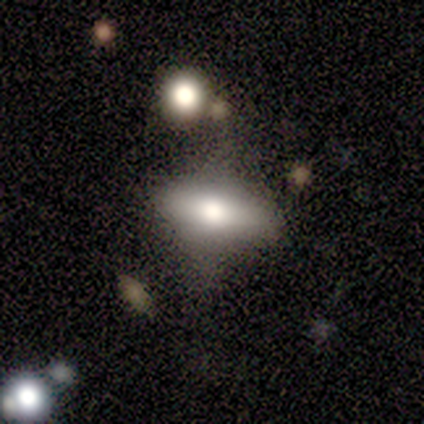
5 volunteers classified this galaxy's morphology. Smooth or featured: smooth — 80% (featured or disk — 20%)
How rounded: in between — 100%
Merging: none — 80% (minor disturbance — 20%)